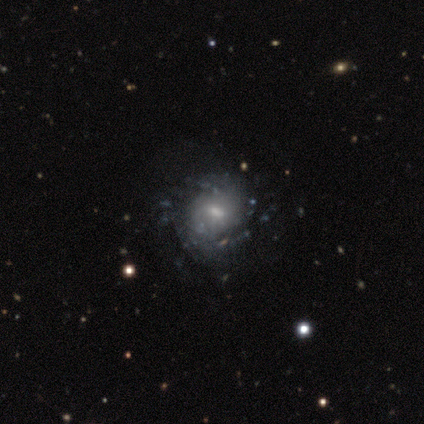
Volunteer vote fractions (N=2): Morphology: type=smooth (50%, tied with featured or disk); roundness=round (100%); merging=minor disturbance (100%).